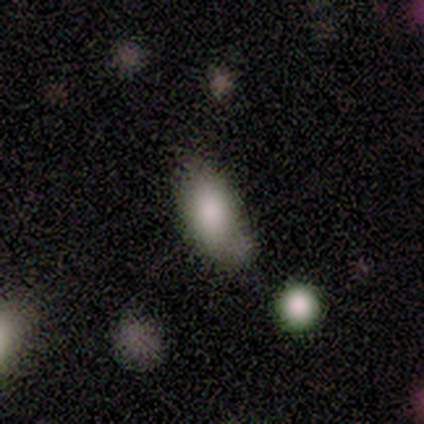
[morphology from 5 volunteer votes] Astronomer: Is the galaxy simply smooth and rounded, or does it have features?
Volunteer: smooth — 80%.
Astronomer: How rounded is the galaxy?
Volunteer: in between — 100%.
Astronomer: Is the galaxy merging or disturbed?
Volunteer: none — 100%.